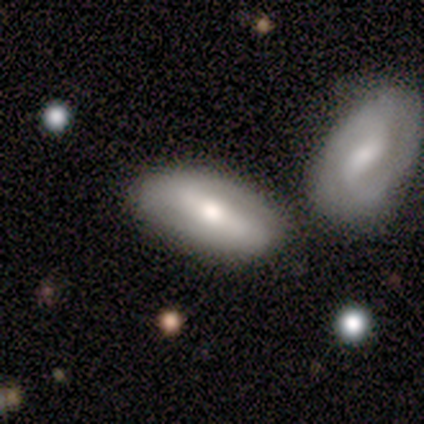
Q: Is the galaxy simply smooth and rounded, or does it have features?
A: featured or disk — 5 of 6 (83%).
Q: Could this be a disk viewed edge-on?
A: no — 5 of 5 (100%).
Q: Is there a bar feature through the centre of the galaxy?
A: strong — 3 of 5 (60%).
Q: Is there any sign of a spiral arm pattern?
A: yes — 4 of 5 (80%).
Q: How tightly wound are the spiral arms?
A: loose — 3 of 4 (75%).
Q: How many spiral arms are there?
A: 2 — 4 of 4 (100%).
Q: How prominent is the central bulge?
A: moderate — 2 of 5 (40%, tied with small).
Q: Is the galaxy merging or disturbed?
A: merger — 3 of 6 (50%).